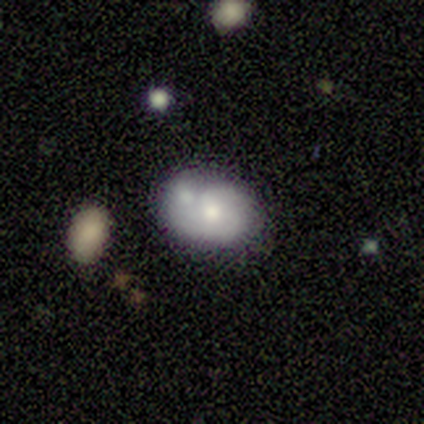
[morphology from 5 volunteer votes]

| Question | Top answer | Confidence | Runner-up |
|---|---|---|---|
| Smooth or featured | smooth | 60% | featured or disk (40%) |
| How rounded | round | 67% | in between (33%) |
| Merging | none | 80% | merger (20%) |